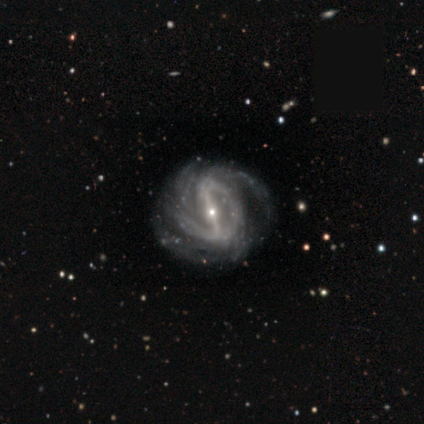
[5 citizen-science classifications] Smooth or featured?
  - featured or disk: 100% *
  - smooth: 0%
  - star or artifact: 0%
Edge-on disk?
  - no: 100% *
  - yes: 0%
Bar?
  - strong: 80% *
  - no: 20%
  - weak: 0%
Spiral arms?
  - yes: 80% *
  - no: 20%
Spiral winding?
  - medium: 75% *
  - loose: 25%
  - tight: 0%
Spiral arm count?
  - 2: 50% *
  - 4: 25%
  - can't tell: 25%
  - 1: 0%
  - 3: 0%
  - more than 4: 0%
Bulge size?
  - small: 80% *
  - moderate: 20%
  - dominant: 0%
  - large: 0%
  - none: 0%
Merging?
  - none: 80% *
  - major disturbance: 20%
  - minor disturbance: 0%
  - merger: 0%